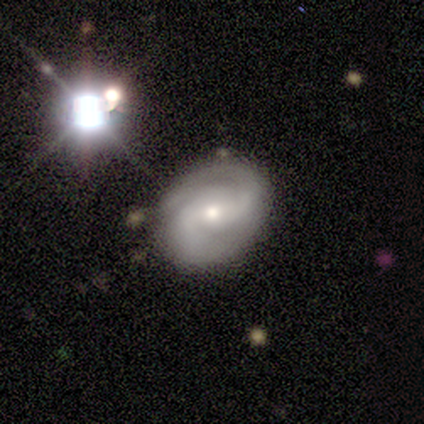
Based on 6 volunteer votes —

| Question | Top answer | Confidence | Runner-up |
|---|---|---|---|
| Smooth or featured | featured or disk | 50% | star or artifact (33%) |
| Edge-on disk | no | 100% | — |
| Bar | no | 67% | weak (33%) |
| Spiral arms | yes | 100% | — |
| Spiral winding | medium | 67% | tight (33%) |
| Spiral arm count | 2 | 100% | — |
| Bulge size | moderate | 67% | small (33%) |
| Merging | none | 100% | — |